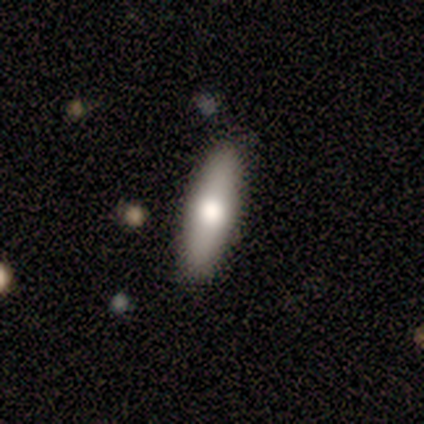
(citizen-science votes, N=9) Smooth or featured? 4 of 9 (44%, tied with featured or disk) said smooth. How rounded? 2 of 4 (50%, tied with cigar-shaped) said in between. Merging? 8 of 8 (100%) said none.